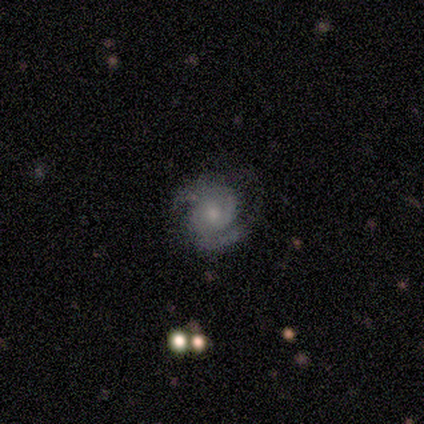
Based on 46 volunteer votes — Smooth or featured? featured or disk (89%)
Edge-on disk? no (100%)
Bar? no (76%)
Spiral arms? yes (98%)
Spiral winding? medium (52%)
Spiral arm count? 2 (88%)
Bulge size? small (49%)
Merging? none (60%)